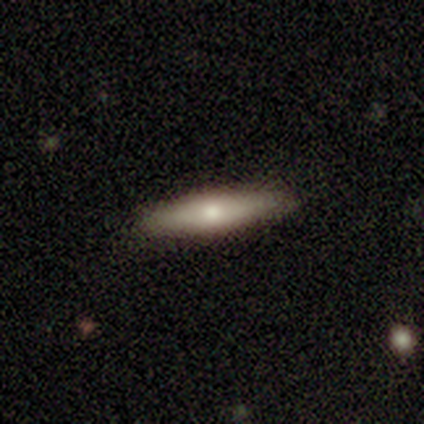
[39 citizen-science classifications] This appears to be a smooth galaxy with no disk features (69%) that is cigar-shaped (85%). Merging: none (85%).